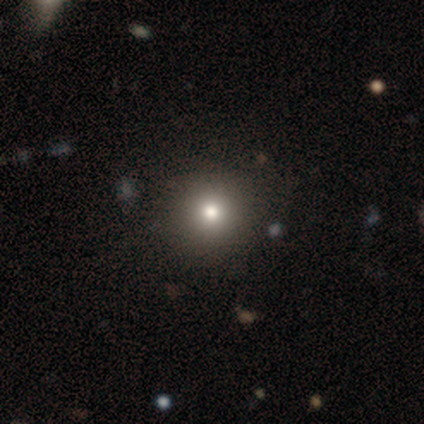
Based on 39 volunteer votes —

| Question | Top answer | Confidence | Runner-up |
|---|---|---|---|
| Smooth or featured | smooth | 79% | featured or disk (10%) |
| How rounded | round | 94% | in between (6%) |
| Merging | none | 66% | merger (9%) |